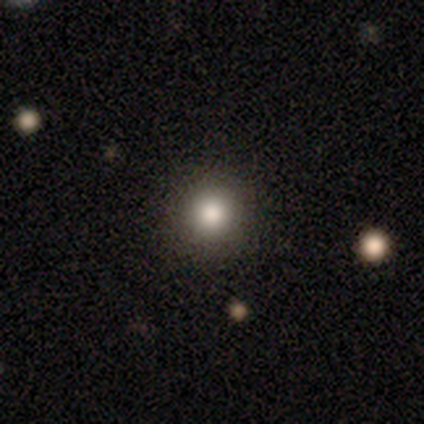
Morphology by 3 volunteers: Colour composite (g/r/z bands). It shows a smooth galaxy with no disk features (67%) that is round (100%). Merging: none (100%).